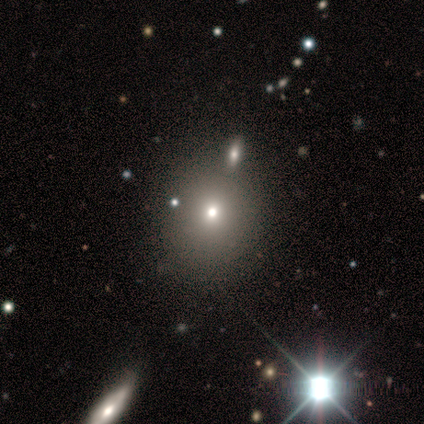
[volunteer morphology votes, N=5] A smooth galaxy with no disk features (60%) that is round (100%). Merging: none (33%, tied with minor disturbance and major disturbance).